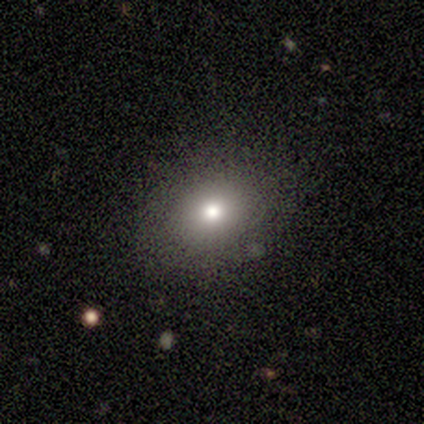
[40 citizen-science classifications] Morphology: type=smooth (78%); roundness=round (55%); merging=none (89%).